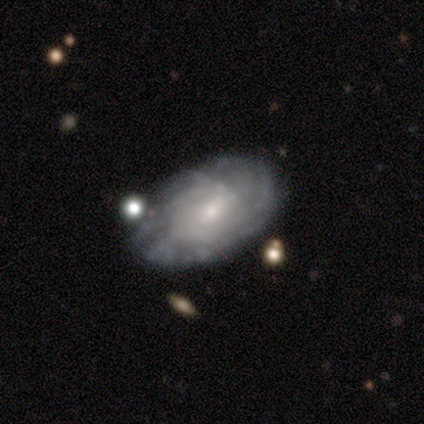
A featured or disk galaxy (100%) with no bar (60%), medium (67%) spiral arms (60%) and a small central bulge (80%). Merging: none (80%).